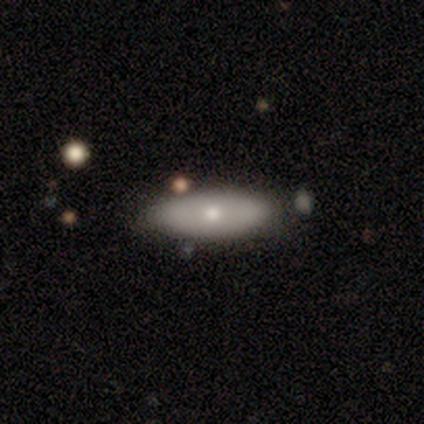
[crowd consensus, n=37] Smooth or featured?
  - smooth: 54% *
  - featured or disk: 35%
  - star or artifact: 11%
How rounded?
  - in between: 70% *
  - cigar-shaped: 20%
  - round: 10%
Merging?
  - none: 73% *
  - minor disturbance: 21%
  - merger: 6%
  - major disturbance: 0%